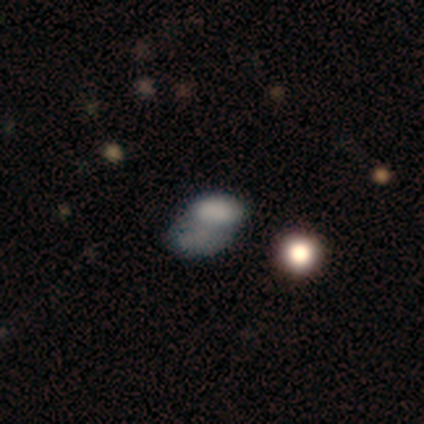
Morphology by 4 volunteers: Q: Smooth or featured?
A: smooth (75%); runner-up: featured or disk (25%)
Q: How rounded?
A: in between (100%)
Q: Merging?
A: none (50%); tied with: merger (50%)